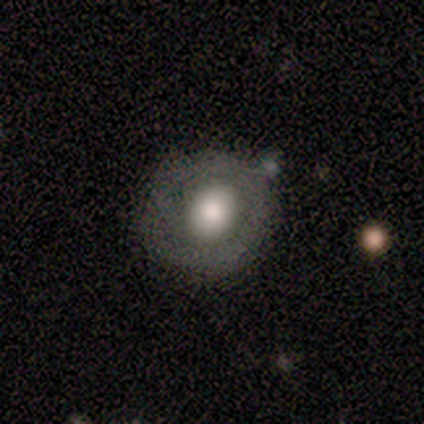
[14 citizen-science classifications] smooth 57%, featured or disk 36%, star or artifact 7%. Down the decision tree: how rounded — round (75%); merging — none (69%).